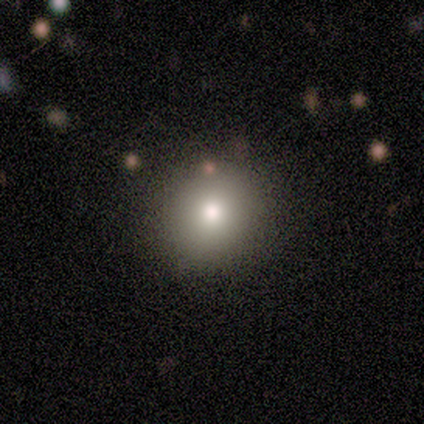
Volunteers were most divided on "smooth or featured": smooth: 78%, star or artifact: 22%, featured or disk: 0%. More confident: how rounded — round (93%); merging — none (79%).